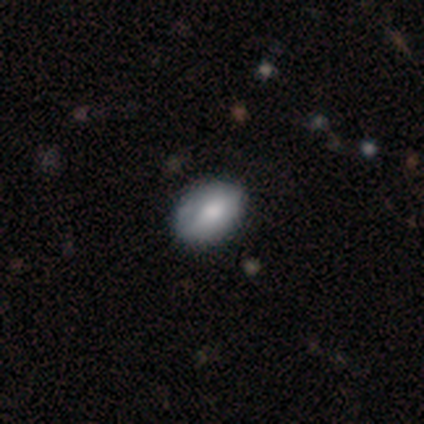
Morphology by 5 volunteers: Smooth or featured? 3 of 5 (60%) said smooth. How rounded? 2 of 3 (67%) said in between. Merging? 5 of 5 (100%) said none.